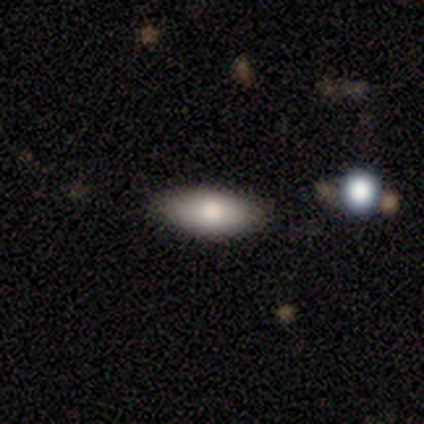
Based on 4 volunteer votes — Morphology: type=smooth (50%); roundness=in between (100%); merging=none (67%).